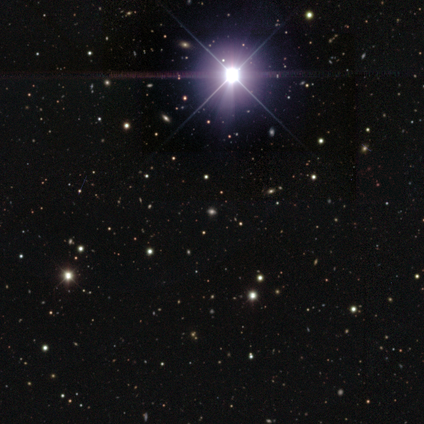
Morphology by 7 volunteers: smooth_or_featured: star or artifact (p=0.57) [alt: smooth p=0.43]